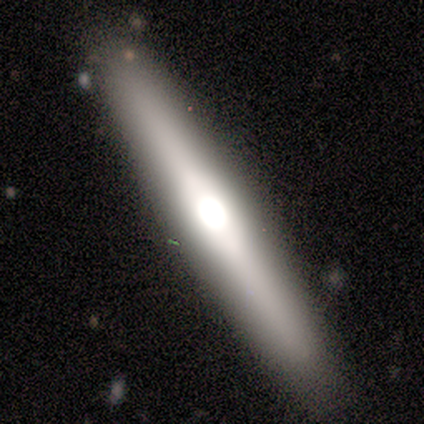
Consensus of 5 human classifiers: Q: Smooth or featured?
A: featured or disk (60%); runner-up: smooth (40%)
Q: Edge-on disk?
A: yes (100%)
Q: Edge-on bulge?
A: rounded (100%)
Q: Merging?
A: none (100%)